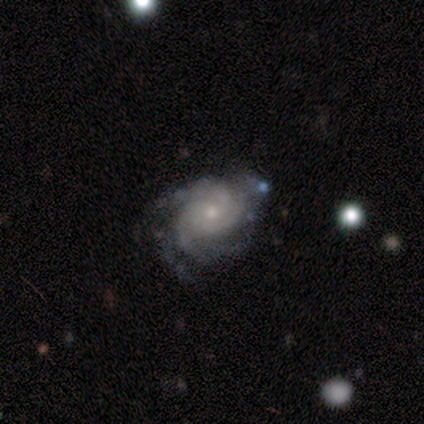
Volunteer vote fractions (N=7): A featured or disk galaxy (100%) with no bar (86%), 3 (43%) tight (57%) spiral arms (100%) and a small central bulge (71%). Merging: none (57%).